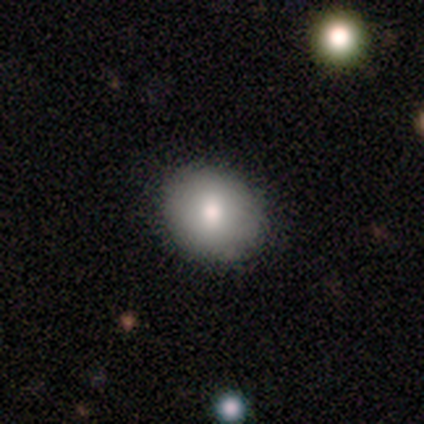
smooth-or-featured: smooth: 73% | featured or disk: 22% | star or artifact: 5%
  how-rounded: round: 67% | in between: 33% | cigar-shaped: 0%
  merging: none: 69% | merger: 6% | major disturbance: 3% | minor disturbance: 0%